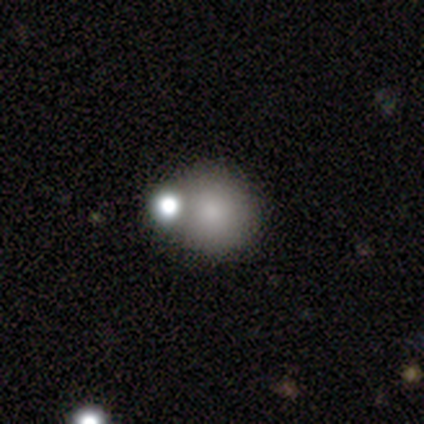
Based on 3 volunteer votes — A smooth galaxy with no disk features (100%) that is round (67%).

Vote fractions:
- Smooth or featured? smooth: 100% / featured or disk: 0% / star or artifact: 0%
- How rounded? round: 67% / in between: 33% / cigar-shaped: 0%
- Merging? none: 100% / minor disturbance: 0% / major disturbance: 0% / merger: 0%